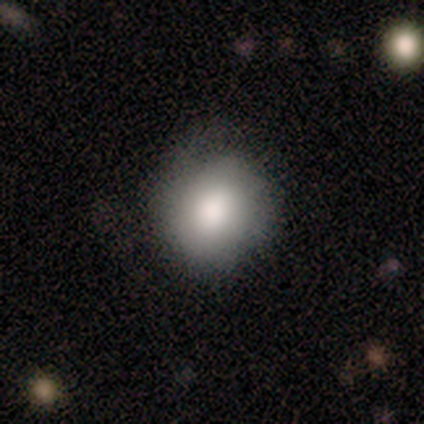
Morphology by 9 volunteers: Smooth or featured: smooth — 78% (featured or disk — 11%)
How rounded: round — 86% (in between — 14%)
Merging: none — 50% (tied with minor disturbance — 50%)